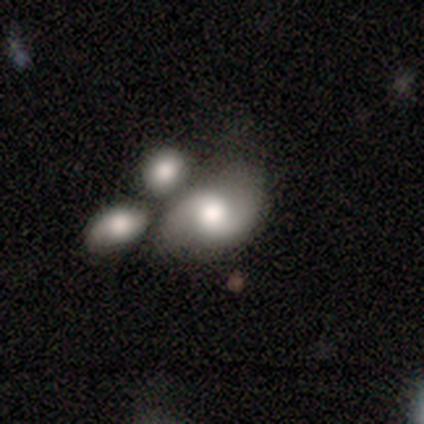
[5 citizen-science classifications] Q: Smooth or featured?
A: featured or disk (80%); runner-up: smooth (20%)
Q: Edge-on disk?
A: no (100%)
Q: Bar?
A: weak (75%); runner-up: no (25%)
Q: Spiral arms?
A: yes (75%); runner-up: no (25%)
Q: Spiral winding?
A: loose (67%); runner-up: medium (33%)
Q: Spiral arm count?
A: 2 (100%)
Q: Bulge size?
A: moderate (75%); runner-up: large (25%)
Q: Merging?
A: none (80%); runner-up: minor disturbance (20%)